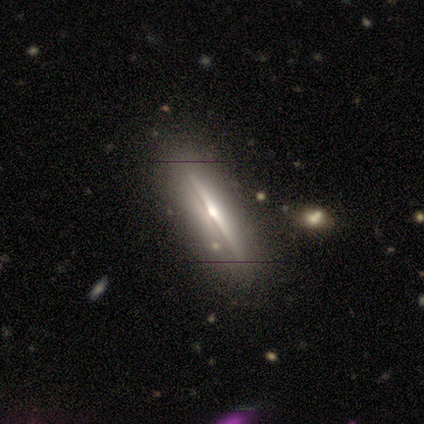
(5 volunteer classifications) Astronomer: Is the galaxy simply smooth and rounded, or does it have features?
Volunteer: featured or disk — 80%.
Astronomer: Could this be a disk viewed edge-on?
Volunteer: yes — 100%.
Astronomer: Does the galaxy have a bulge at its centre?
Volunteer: rounded — 75%.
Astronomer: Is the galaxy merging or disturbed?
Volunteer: none — 80%.